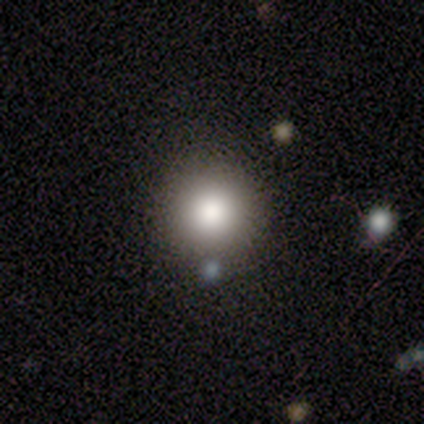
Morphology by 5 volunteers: Q: Smooth or featured?
A: smooth (100%)
Q: How rounded?
A: round (100%)
Q: Merging?
A: none (80%); runner-up: merger (20%)